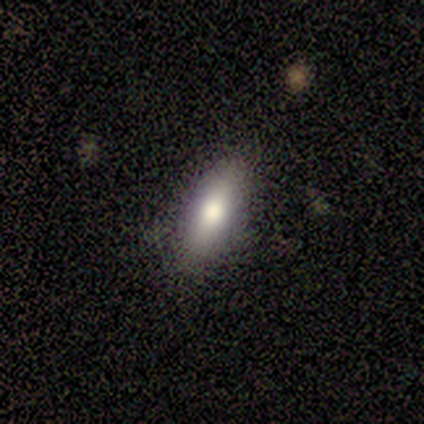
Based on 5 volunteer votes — This is clearly a smooth galaxy (80%). How rounded: likely in between (75%). Merging: likely none (60%).